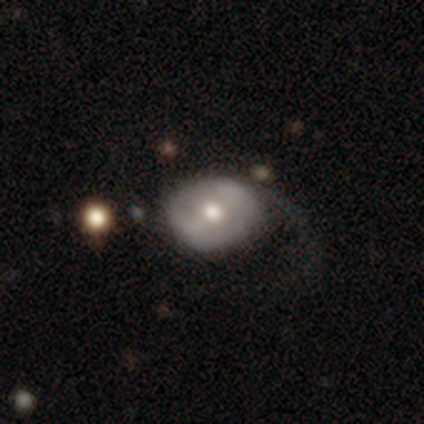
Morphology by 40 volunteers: Smooth or featured? featured or disk (55%)
Edge-on disk? no (95%)
Bar? no (52%)
Spiral arms? no (57%)
Bulge size? moderate (67%)
Merging? major disturbance (41%)